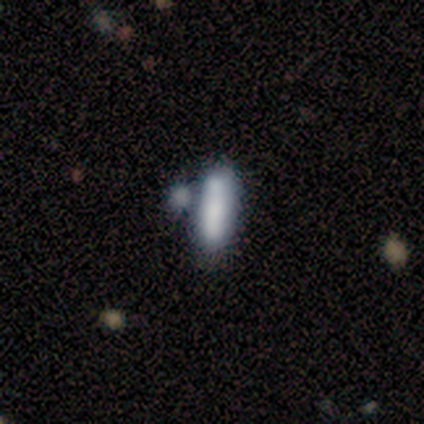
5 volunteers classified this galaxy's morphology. type=smooth (80%); roundness=cigar-shaped (75%); merging=none (40%, tied with merger).